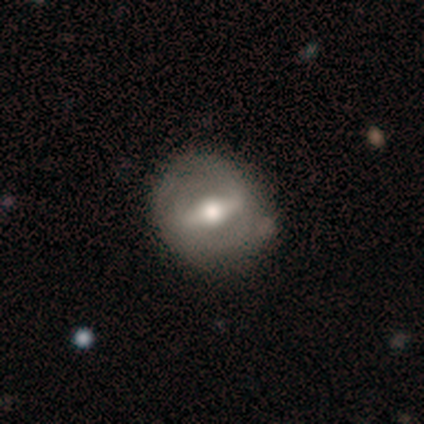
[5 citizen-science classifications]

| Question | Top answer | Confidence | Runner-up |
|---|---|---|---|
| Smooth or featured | featured or disk | 80% | smooth (20%) |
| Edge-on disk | no | 100% | — |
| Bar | strong | 50% | tied: weak (50%) |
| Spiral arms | yes | 50% | tied: no (50%) |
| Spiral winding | tight | 50% | tied: medium (50%) |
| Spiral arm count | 1 | 50% | tied: 2 (50%) |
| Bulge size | large | 100% | — |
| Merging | minor disturbance | 40% | tied: merger (40%) |